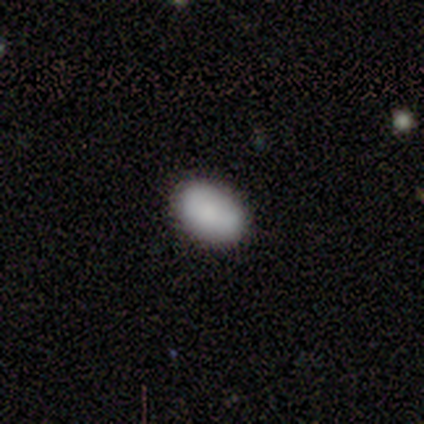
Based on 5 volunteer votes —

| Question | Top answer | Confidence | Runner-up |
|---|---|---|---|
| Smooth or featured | smooth | 80% | star or artifact (20%) |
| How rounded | in between | 75% | round (25%) |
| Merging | none | 100% | — |